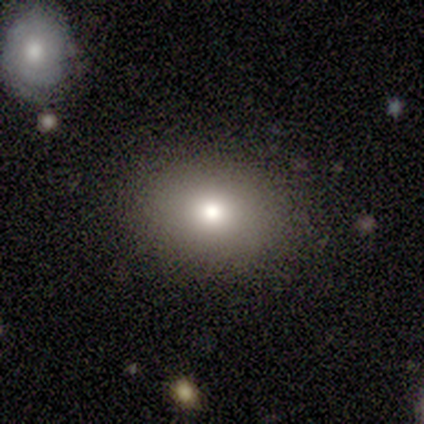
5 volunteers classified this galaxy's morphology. Smooth or featured: smooth — 60% (featured or disk — 20%)
How rounded: round — 67% (in between — 33%)
Merging: none — 100%